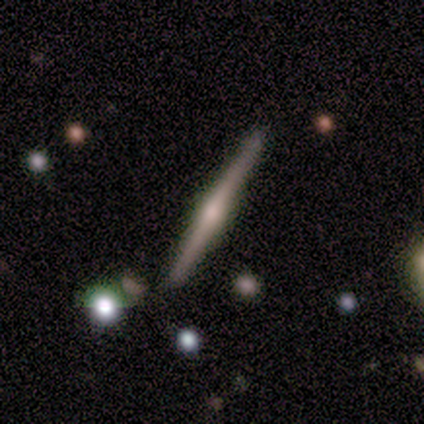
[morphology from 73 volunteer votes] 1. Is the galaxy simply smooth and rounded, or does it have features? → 86% featured or disk, 10% smooth, 4% star or artifact.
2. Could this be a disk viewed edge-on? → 98% yes, 2% no.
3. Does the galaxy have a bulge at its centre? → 92% rounded, 5% boxy, 3% none.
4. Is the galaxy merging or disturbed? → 91% none, 4% minor disturbance, 4% merger, 0% major disturbance.